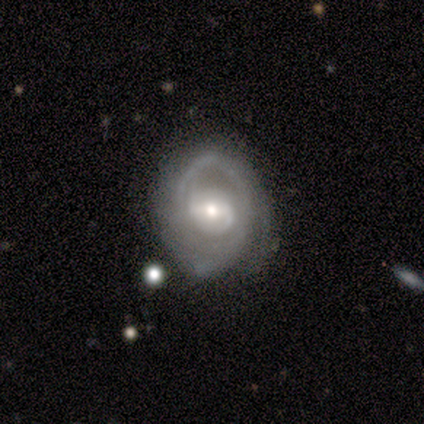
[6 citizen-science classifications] smooth_or_featured: featured or disk (p=0.83) [alt: smooth p=0.17]
disk_edge_on: no (p=1.00)
bar: weak (p=0.60) [alt: no p=0.40]
has_spiral_arms: yes (p=1.00)
spiral_winding: tight (p=0.40) [tied with: medium p=0.40]
spiral_arm_count: 2 (p=0.80) [alt: can't tell p=0.20]
bulge_size: small (p=0.80) [alt: large p=0.20]
merging: none (p=0.67) [alt: minor disturbance p=0.33]